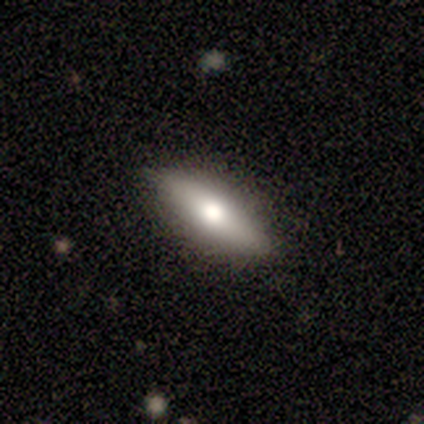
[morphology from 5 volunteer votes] smooth-or-featured: smooth: 80% | featured or disk: 20% | star or artifact: 0%
  how-rounded: in between: 75% | cigar-shaped: 25% | round: 0%
  merging: none: 100% | minor disturbance: 0% | major disturbance: 0% | merger: 0%